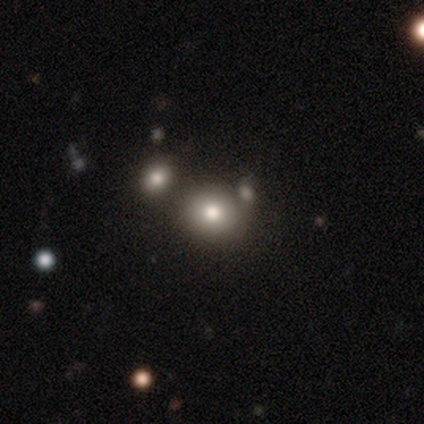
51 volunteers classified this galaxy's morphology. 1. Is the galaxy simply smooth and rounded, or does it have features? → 75% smooth, 18% star or artifact, 8% featured or disk.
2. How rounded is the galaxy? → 82% round, 18% in between, 0% cigar-shaped.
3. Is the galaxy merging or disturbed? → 60% none, 31% merger, 5% minor disturbance, 5% major disturbance.